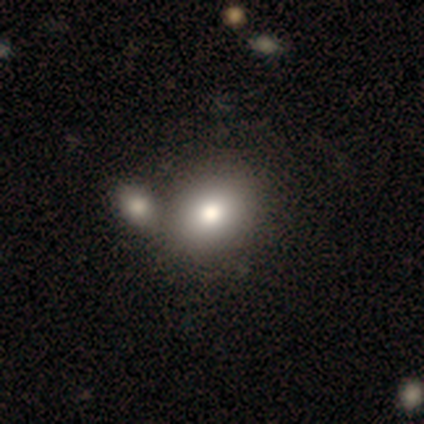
A smooth galaxy with no disk features (79%) that is in between round and cigar-shaped (58%). Merging: merger (42%).